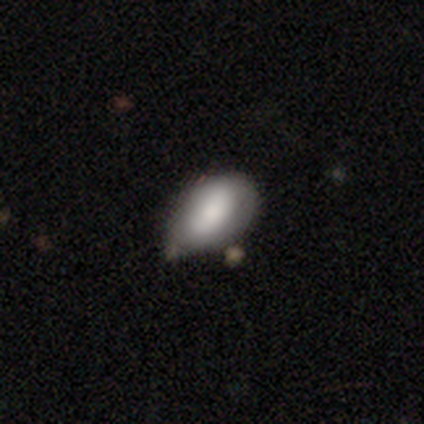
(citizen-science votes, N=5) Smooth or featured?
  - smooth: 100% *
  - featured or disk: 0%
  - star or artifact: 0%
How rounded?
  - in between: 100% *
  - round: 0%
  - cigar-shaped: 0%
Merging?
  - minor disturbance: 80% *
  - none: 20%
  - major disturbance: 0%
  - merger: 0%